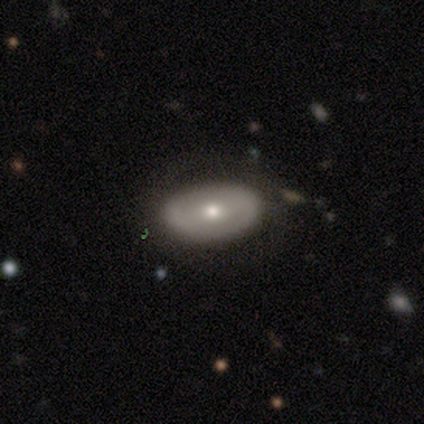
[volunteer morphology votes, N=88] Smooth or featured?
  - smooth: 50% *
  - featured or disk: 39%
  - star or artifact: 11%
How rounded?
  - in between: 84% *
  - round: 11%
  - cigar-shaped: 5%
Merging?
  - none: 77% *
  - minor disturbance: 18%
  - major disturbance: 5%
  - merger: 0%